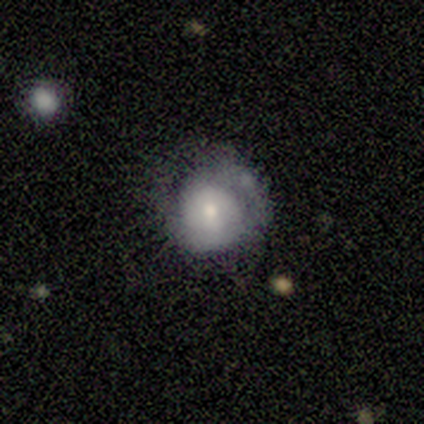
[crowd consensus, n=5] smooth 100%, featured or disk 0%, star or artifact 0%. Down the decision tree: how rounded — round (100%); merging — none (40%, tied with minor disturbance).